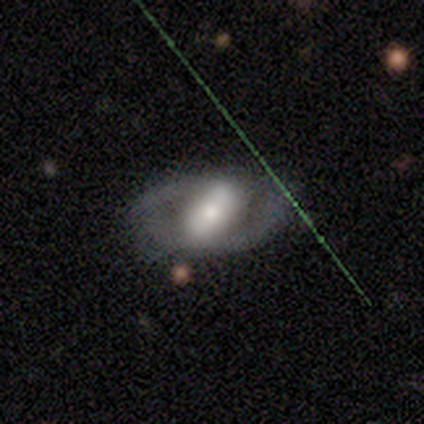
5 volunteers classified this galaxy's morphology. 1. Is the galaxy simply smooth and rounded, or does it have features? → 60% featured or disk, 40% smooth, 0% star or artifact.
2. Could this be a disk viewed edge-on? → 100% no, 0% yes.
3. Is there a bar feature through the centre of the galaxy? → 100% strong, 0% weak, 0% no.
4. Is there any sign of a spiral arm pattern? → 67% yes, 33% no.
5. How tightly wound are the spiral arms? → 50% medium (tied), 50% loose (tied), 0% tight.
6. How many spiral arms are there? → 50% 2 (tied), 50% can't tell (tied), 0% 1, 0% 3, 0% 4, 0% more than 4.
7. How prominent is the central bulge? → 100% moderate, 0% dominant, 0% large, 0% small, 0% none.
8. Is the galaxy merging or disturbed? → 60% none, 20% minor disturbance, 20% merger, 0% major disturbance.